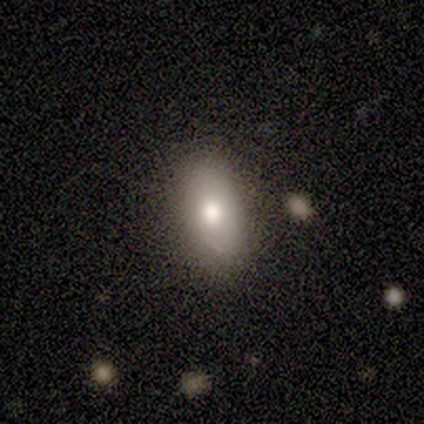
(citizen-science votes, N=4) Volunteers were most divided on "smooth or featured" (2-way tie): smooth: 50%, featured or disk: 50%, star or artifact: 0%. More confident: how rounded — in between (100%); merging — none (100%).